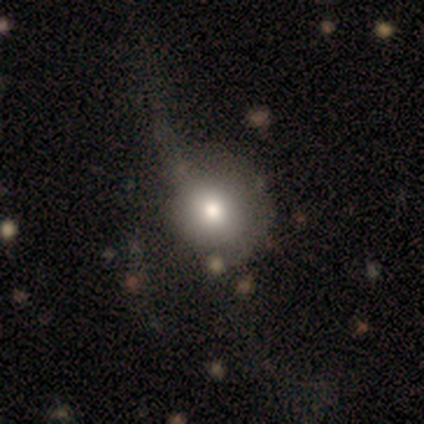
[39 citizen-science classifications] Smooth or featured? smooth (72%)
How rounded? round (86%)
Merging? major disturbance (24%)